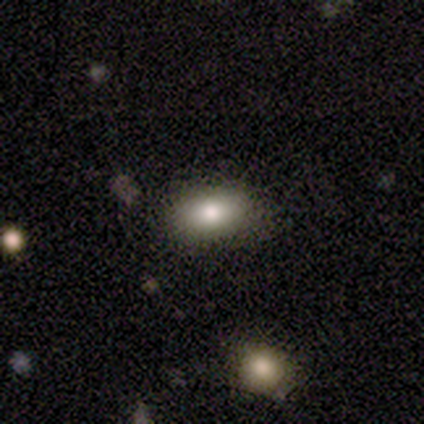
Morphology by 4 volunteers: Overall: smooth (100%). How rounded: in between (100%). Merging: none (100%).